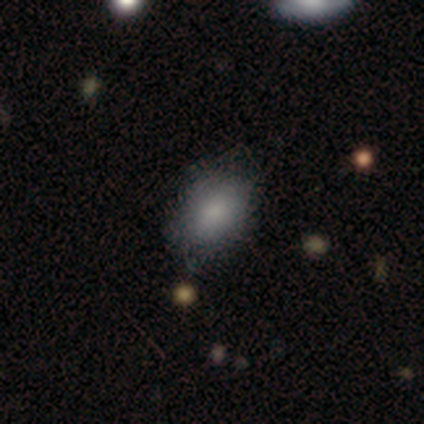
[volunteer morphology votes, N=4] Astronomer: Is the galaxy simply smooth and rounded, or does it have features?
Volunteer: smooth — 100%.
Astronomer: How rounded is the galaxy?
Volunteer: in between — 100%.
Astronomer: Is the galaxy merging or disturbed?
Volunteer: none — 75%.